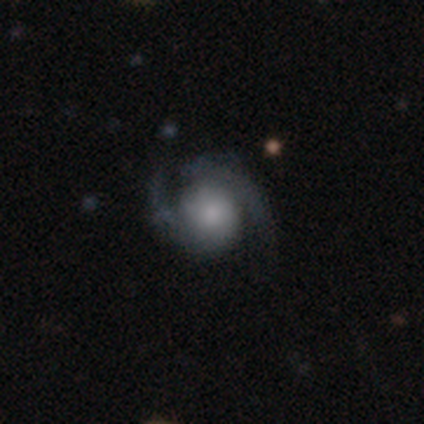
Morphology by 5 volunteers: smooth-or-featured: featured or disk: 80% | star or artifact: 20% | smooth: 0%
  disk-edge-on: no: 100% | yes: 0%
    bar: no: 100% | strong: 0% | weak: 0%
    has-spiral-arms: yes: 100% | no: 0%
      spiral-winding: medium: 50% | tight: 25% | loose: 25%
      spiral-arm-count: 2: 75% | 3: 25% | 1: 0% | 4: 0% | more than 4: 0% | can't tell: 0%
    bulge-size: large: 50% | moderate: 25% | small: 25% | dominant: 0% | none: 0%
  merging: none: 50% (tied) | minor disturbance: 50% (tied) | major disturbance: 0% | merger: 0%